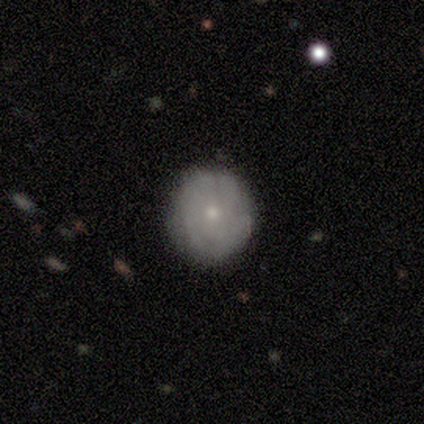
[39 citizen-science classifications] Smooth or featured: featured or disk — 51% (smooth — 41%)
Edge-on disk: no — 100%
Bar: no — 95% (strong — 5%)
Spiral arms: yes — 60% (no — 40%)
Spiral winding: tight — 83% (medium — 8%)
Spiral arm count: can't tell — 83% (4 — 8%)
Bulge size: small — 80% (moderate — 15%)
Merging: none — 81% (minor disturbance — 17%)